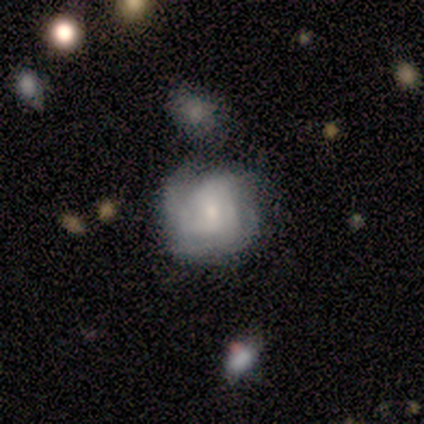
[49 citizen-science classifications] Smooth or featured? 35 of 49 (71%) said featured or disk. Edge-on disk? 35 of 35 (100%) said no. Bar? 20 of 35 (57%) said no. Spiral arms? 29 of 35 (83%) said yes. Spiral winding? 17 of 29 (59%) said tight. Spiral arm count? 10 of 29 (34%) said can't tell. Bulge size? 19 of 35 (54%) said small. Merging? 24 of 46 (52%) said none.